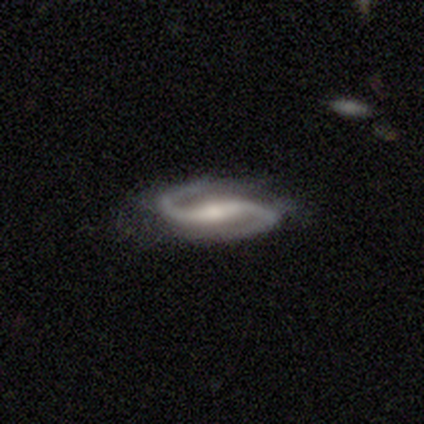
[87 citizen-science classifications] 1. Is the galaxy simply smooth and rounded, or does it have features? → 94% featured or disk, 5% star or artifact, 1% smooth.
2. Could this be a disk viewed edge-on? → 93% no, 7% yes.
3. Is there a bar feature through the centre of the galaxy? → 62% strong, 28% weak, 11% no.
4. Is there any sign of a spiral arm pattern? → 97% yes, 3% no.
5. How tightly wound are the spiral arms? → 49% medium, 43% loose, 8% tight.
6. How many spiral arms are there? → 96% 2, 4% 1, 0% 3, 0% 4, 0% more than 4, 0% can't tell.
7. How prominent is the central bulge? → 62% moderate, 26% small, 7% large, 5% none, 0% dominant.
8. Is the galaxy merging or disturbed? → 72% none, 18% minor disturbance, 8% major disturbance, 1% merger.